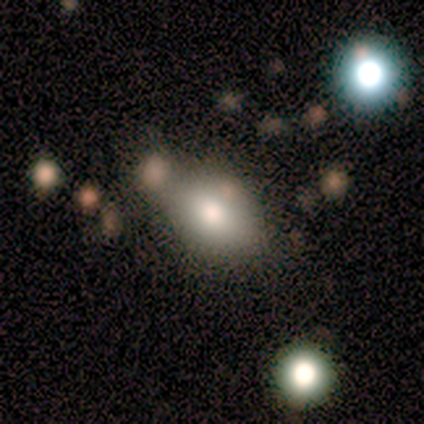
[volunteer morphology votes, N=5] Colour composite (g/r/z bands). It shows a smooth galaxy with no disk features (100%) that is in between round and cigar-shaped (60%). Merging: none (40%, tied with merger).